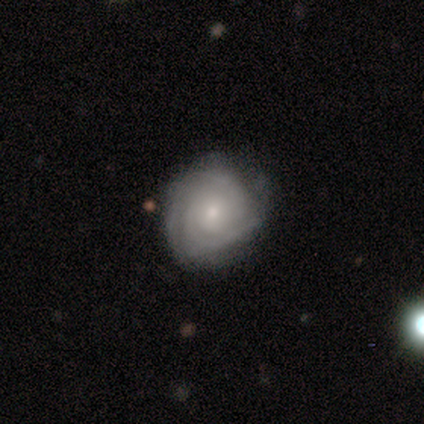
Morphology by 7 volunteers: smooth_or_featured: featured or disk (p=1.00)
disk_edge_on: no (p=1.00)
bar: no (p=0.71) [alt: weak p=0.29]
has_spiral_arms: yes (p=1.00)
spiral_winding: tight (p=0.57) [alt: medium p=0.29]
spiral_arm_count: 2 (p=0.29) [tied with: can't tell p=0.29]
bulge_size: small (p=0.86) [alt: moderate p=0.14]
merging: none (p=0.86) [alt: minor disturbance p=0.14]